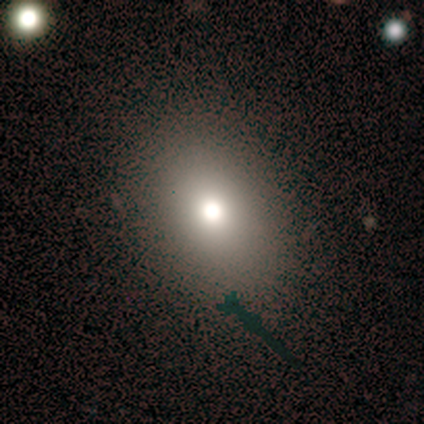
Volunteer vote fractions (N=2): A smooth galaxy with no disk features (50%, tied with star or artifact) that is round (100%).

Vote fractions:
- Smooth or featured? smooth: 50% (tied) / star or artifact: 50% (tied) / featured or disk: 0%
- How rounded? round: 100% / in between: 0% / cigar-shaped: 0%
- Merging? none: 100% / minor disturbance: 0% / major disturbance: 0% / merger: 0%